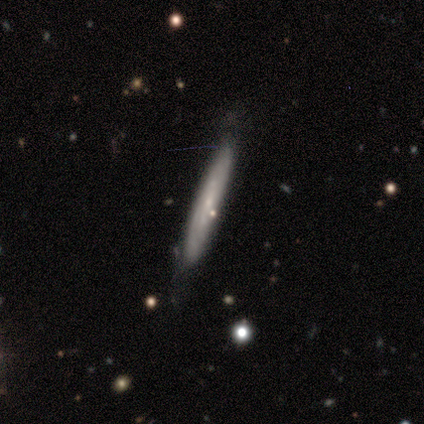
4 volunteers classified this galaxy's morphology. type=smooth (50%); roundness=cigar-shaped (100%); merging=none (100%).